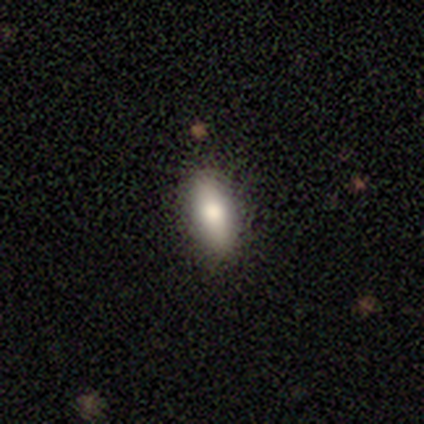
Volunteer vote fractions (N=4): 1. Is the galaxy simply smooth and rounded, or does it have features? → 75% smooth, 25% star or artifact, 0% featured or disk.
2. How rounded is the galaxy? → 67% cigar-shaped, 33% round, 0% in between.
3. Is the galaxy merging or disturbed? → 100% none, 0% minor disturbance, 0% major disturbance, 0% merger.